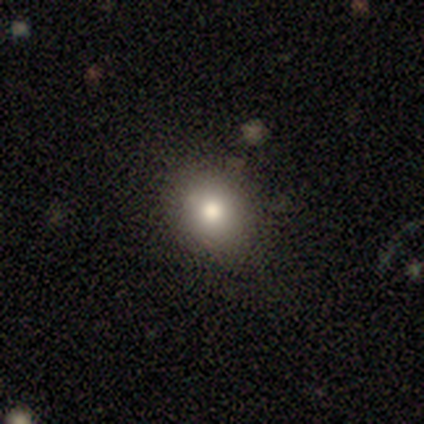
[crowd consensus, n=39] A smooth galaxy with no disk features (79%) that is round (71%). Merging: none (92%).